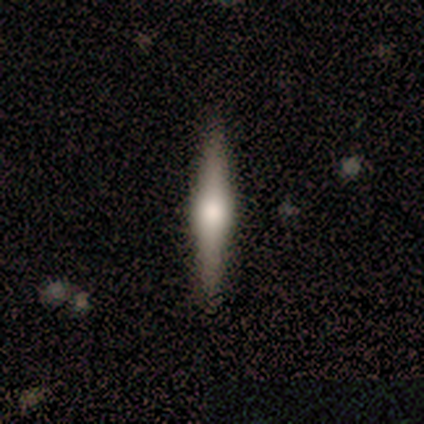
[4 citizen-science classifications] Smooth or featured? featured or disk (100%)
Edge-on disk? yes (100%)
Edge-on bulge? rounded (100%)
Merging? none (75%)